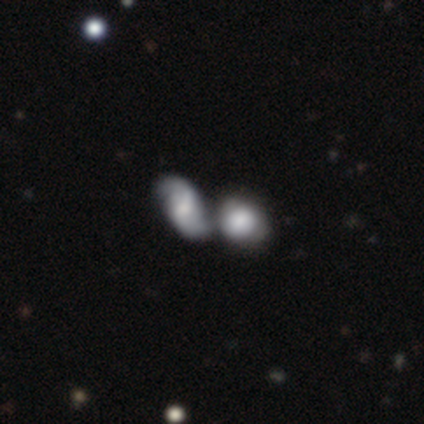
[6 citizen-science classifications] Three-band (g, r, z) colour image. It shows a featured or disk galaxy (67%) with a weak bar (50%, tied with no), 1 (33%, tied with 2 and 3) medium (100%) spiral arms (75%) and a large central bulge (25%, tied with moderate, small and none). Merging: merger (83%).